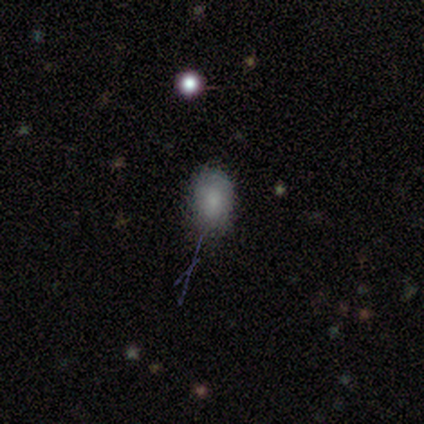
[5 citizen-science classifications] smooth 40% (tied), featured or disk 40% (tied), star or artifact 20%. Down the decision tree: how rounded — in between (100%); merging — none (75%).